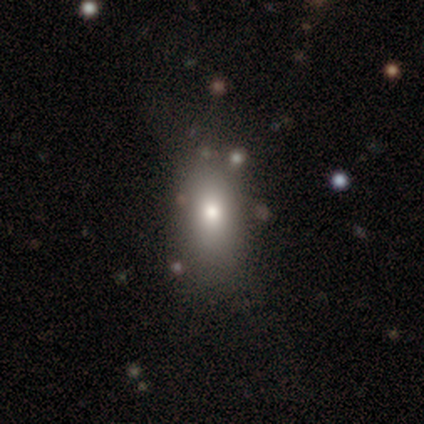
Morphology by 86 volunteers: smooth 77%, featured or disk 12%, star or artifact 12%. Down the decision tree: how rounded — in between (80%); merging — none (67%).